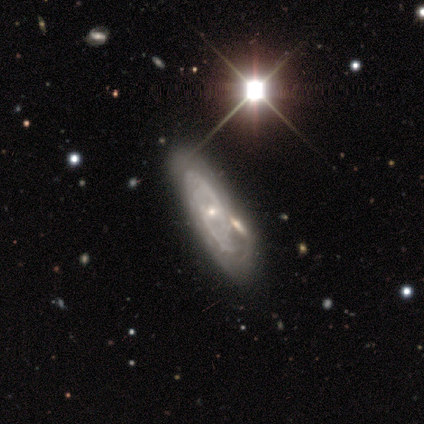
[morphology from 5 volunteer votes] type=featured or disk (100%); edge-on=no (100%); bar=no (60%); spiral arms=yes (100%); winding=tight (60%); arm count=2 (40%, tied with can't tell); bulge=small (80%); merging=minor disturbance (60%).